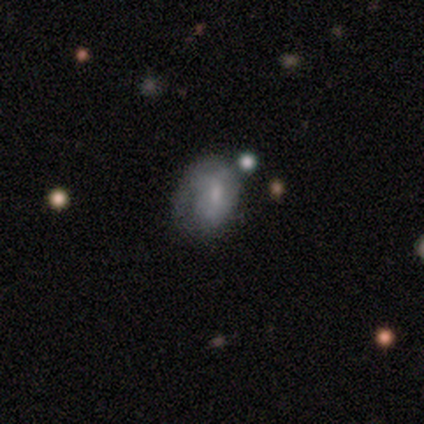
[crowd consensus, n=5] Smooth or featured? smooth (40%, tied with featured or disk)
How rounded? round (50%, tied with in between)
Merging? none (50%, tied with minor disturbance)